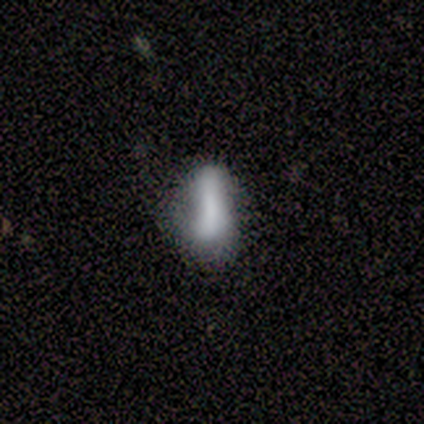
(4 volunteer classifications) This is likely a smooth galaxy (75%). How rounded: likely cigar-shaped (67%). Merging: possibly none (50%, tied with minor disturbance).